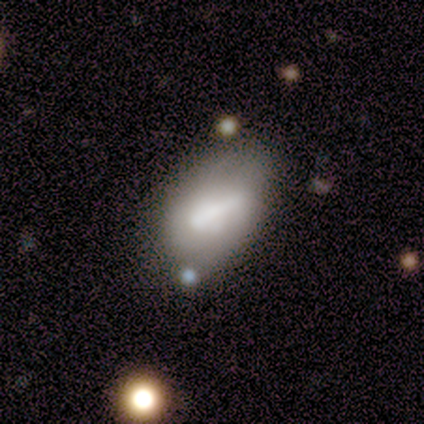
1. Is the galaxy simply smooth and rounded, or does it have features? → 80% smooth, 20% featured or disk, 0% star or artifact.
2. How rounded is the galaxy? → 100% in between, 0% round, 0% cigar-shaped.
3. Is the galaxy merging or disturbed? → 80% none, 20% merger, 0% minor disturbance, 0% major disturbance.